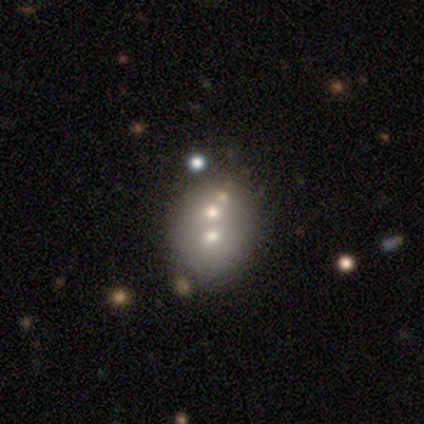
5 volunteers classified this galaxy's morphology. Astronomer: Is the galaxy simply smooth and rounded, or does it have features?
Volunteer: smooth — 40%, tied with featured or disk at 40%.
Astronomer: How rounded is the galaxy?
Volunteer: round — 50%, tied with in between at 50%.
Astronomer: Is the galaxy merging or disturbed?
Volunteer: merger — 75%.